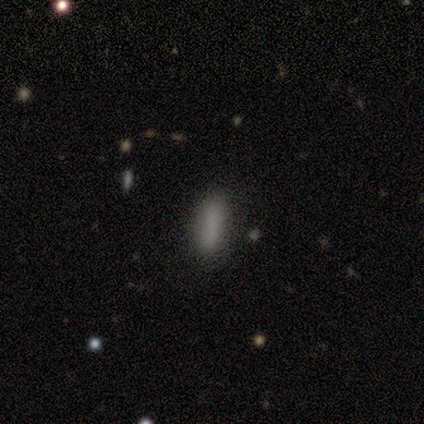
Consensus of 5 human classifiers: Smooth or featured? smooth (100%)
How rounded? in between (80%)
Merging? none (80%)